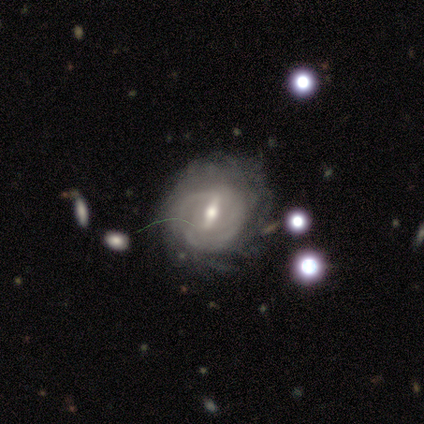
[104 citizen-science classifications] Q: Smooth or featured?
A: featured or disk (92%); runner-up: star or artifact (5%)
Q: Edge-on disk?
A: no (98%); runner-up: yes (2%)
Q: Bar?
A: strong (57%); runner-up: weak (39%)
Q: Spiral arms?
A: yes (87%); runner-up: no (13%)
Q: Spiral winding?
A: tight (65%); runner-up: medium (29%)
Q: Spiral arm count?
A: can't tell (62%); runner-up: 2 (13%)
Q: Bulge size?
A: moderate (62%); runner-up: small (35%)
Q: Merging?
A: none (54%); runner-up: minor disturbance (21%)